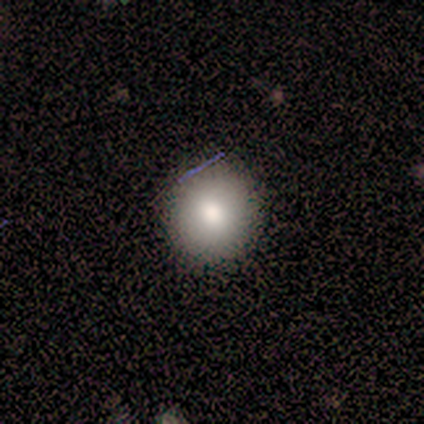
smooth_or_featured: smooth (p=0.33) [tied with: featured or disk p=0.33, star or artifact p=0.33]
how_rounded: round (p=1.00)
merging: none (p=1.00)